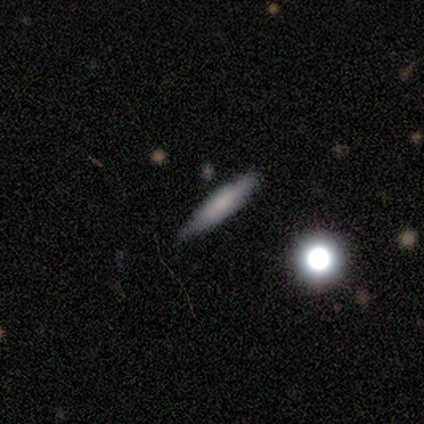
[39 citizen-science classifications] smooth 62%, featured or disk 26%, star or artifact 13%. Down the decision tree: how rounded — cigar-shaped (83%); merging — none (79%).